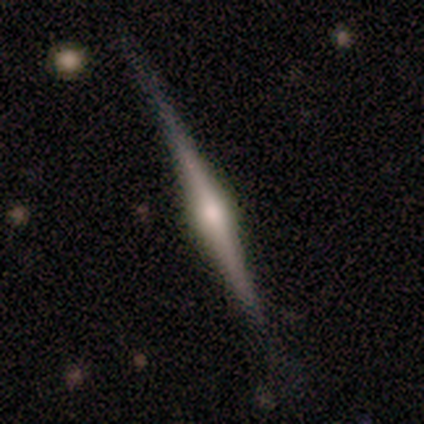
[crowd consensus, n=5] Smooth or featured? 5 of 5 (100%) said featured or disk. Edge-on disk? 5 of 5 (100%) said yes. Edge-on bulge? 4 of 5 (80%) said rounded. Merging? 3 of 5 (60%) said none.